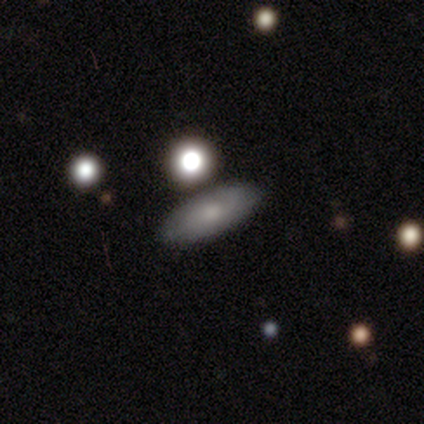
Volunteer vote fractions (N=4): This is possibly a smooth galaxy (50%). How rounded: clearly in between (100%). Merging: clearly none (100%).